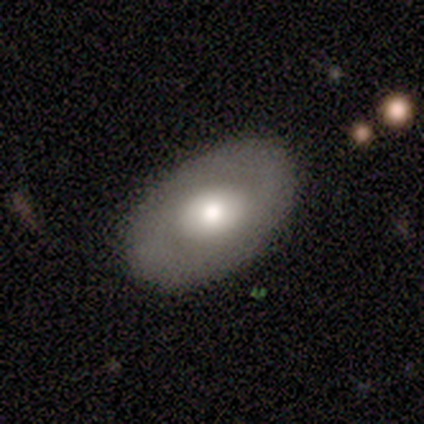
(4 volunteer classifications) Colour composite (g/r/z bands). It shows a smooth galaxy with no disk features (50%, tied with featured or disk) that is in between round and cigar-shaped (100%). Merging: none (100%).